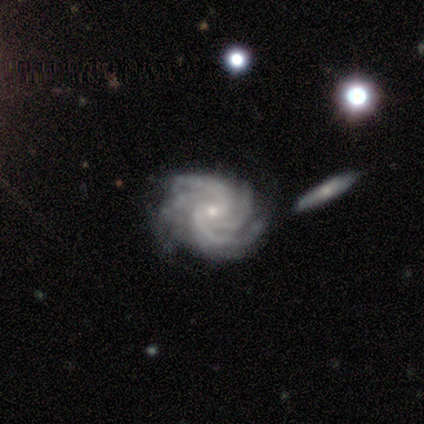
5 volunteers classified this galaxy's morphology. featured or disk 80%, star or artifact 20%, smooth 0%. Down the decision tree: edge-on disk — no (75%); bar — no (100%); spiral arms — yes (100%); spiral arm count — 3 (67%); spiral winding — tight (67%); bulge size — small (100%); merging — none (50%).